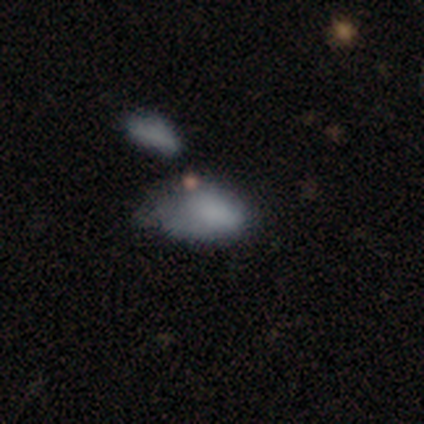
Smooth or featured? 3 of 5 (60%) said smooth. How rounded? 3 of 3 (100%) said in between. Merging? 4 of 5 (80%) said minor disturbance.